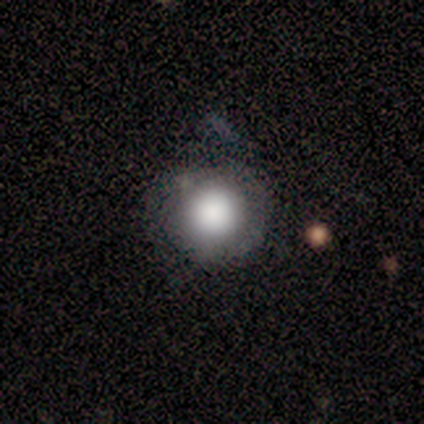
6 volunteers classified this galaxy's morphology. A smooth galaxy with no disk features (50%) that is round (100%). Merging: none (80%).